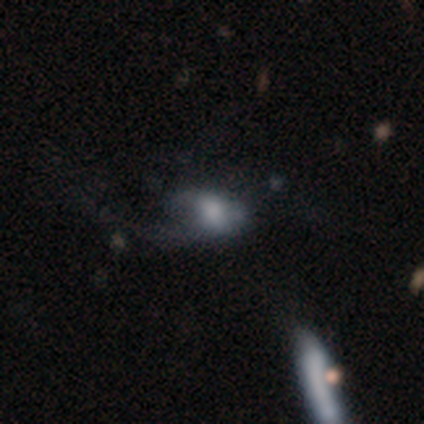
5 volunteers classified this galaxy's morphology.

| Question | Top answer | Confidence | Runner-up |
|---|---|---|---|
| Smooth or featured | featured or disk | 80% | smooth (20%) |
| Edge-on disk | no | 100% | — |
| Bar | no | 75% | strong (25%) |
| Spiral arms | no | 75% | yes (25%) |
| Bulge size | none | 50% | large (25%) |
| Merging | none | 60% | major disturbance (40%) |